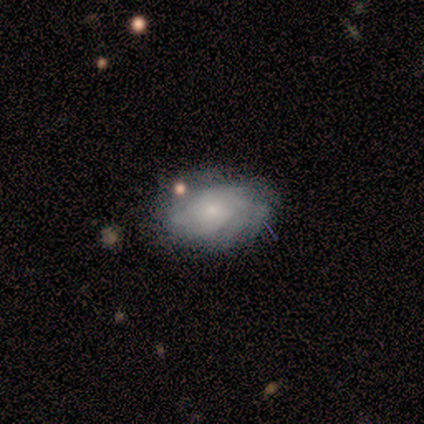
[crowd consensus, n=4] A featured or disk galaxy (100%) with no bar (100%), tight (75%) spiral arms (100%) and a small central bulge (75%). Merging: none (50%, tied with minor disturbance).